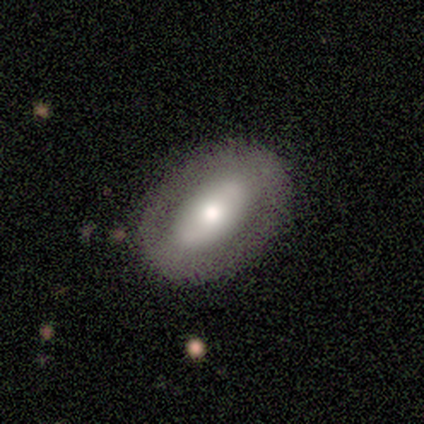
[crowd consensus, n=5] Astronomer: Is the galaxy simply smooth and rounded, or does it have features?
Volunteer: smooth — 60% (runner-up: featured or disk, 40%).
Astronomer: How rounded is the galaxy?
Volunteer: in between — 67%.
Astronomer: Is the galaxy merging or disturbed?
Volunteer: none — 80%.